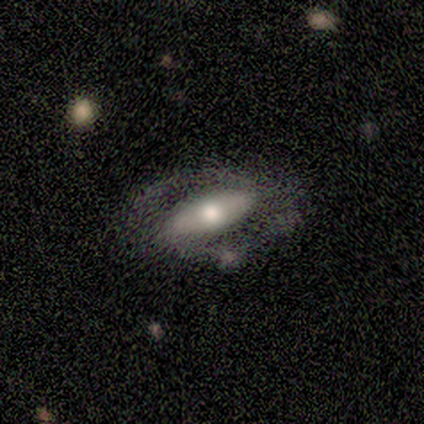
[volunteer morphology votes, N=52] featured or disk 71%, smooth 25%, star or artifact 4%. Down the decision tree: edge-on disk — no (73%); bar — strong (44%); spiral arms — yes (59%); spiral arm count — 2 (88%); spiral winding — medium (69%); bulge size — moderate (59%); merging — none (56%).